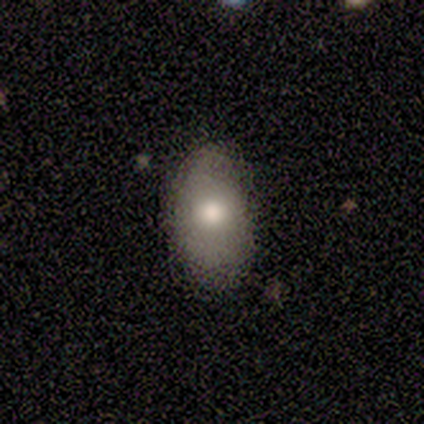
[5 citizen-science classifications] A smooth galaxy with no disk features (80%) that is in between round and cigar-shaped (100%). Merging: none (100%).